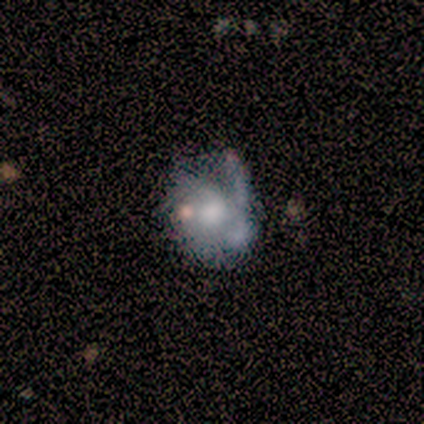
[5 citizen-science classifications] smooth-or-featured: featured or disk: 80% | smooth: 20% | star or artifact: 0%
  disk-edge-on: no: 100% | yes: 0%
    bar: no: 75% | weak: 25% | strong: 0%
    has-spiral-arms: yes: 75% | no: 25%
      spiral-winding: loose: 67% | medium: 33% | tight: 0%
      spiral-arm-count: 1: 67% | 2: 33% | 3: 0% | 4: 0% | more than 4: 0% | can't tell: 0%
    bulge-size: large: 50% | moderate: 25% | none: 25% | dominant: 0% | small: 0%
  merging: none: 40% (tied) | minor disturbance: 40% (tied) | major disturbance: 20% | merger: 0%